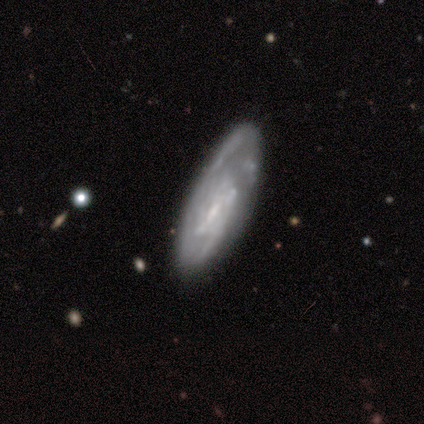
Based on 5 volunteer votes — smooth_or_featured: featured or disk (p=0.60) [alt: smooth p=0.20]
disk_edge_on: no (p=0.67) [alt: yes p=0.33]
bar: weak (p=1.00)
has_spiral_arms: yes (p=1.00)
spiral_winding: tight (p=0.50) [tied with: medium p=0.50]
spiral_arm_count: can't tell (p=1.00)
bulge_size: small (p=1.00)
merging: none (p=0.50) [tied with: minor disturbance p=0.50]